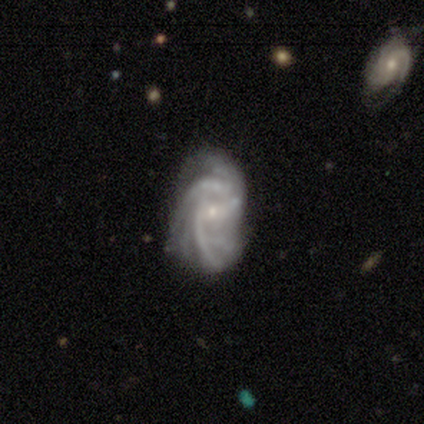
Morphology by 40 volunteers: A featured or disk galaxy (85%) with a weak bar (56%), 2 (21%, tied with more than 4 and can't tell) tight (58%) spiral arms (97%) and a small central bulge (82%).

Vote fractions:
- Smooth or featured? featured or disk: 85% / smooth: 8% / star or artifact: 8%
- Edge-on disk? no: 100% / yes: 0%
- Bar? weak: 56% / no: 32% / strong: 12%
- Spiral arms? yes: 97% / no: 3%
- Spiral winding? tight: 58% / medium: 27% / loose: 15%
- Spiral arm count? 2: 21% (tied) / more than 4: 21% (tied) / can't tell: 21% (tied) / 3: 18% / 4: 18% / 1: 0%
- Bulge size? small: 82% / moderate: 15% / none: 3% / dominant: 0% / large: 0%
- Merging? none: 54% / minor disturbance: 27% / major disturbance: 16% / merger: 3%